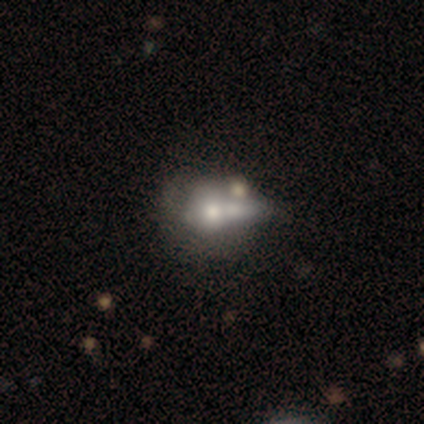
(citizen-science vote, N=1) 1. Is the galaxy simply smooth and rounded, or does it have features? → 100% smooth, 0% featured or disk, 0% star or artifact.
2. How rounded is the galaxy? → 100% round, 0% in between, 0% cigar-shaped.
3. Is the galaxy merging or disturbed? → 100% merger, 0% none, 0% minor disturbance, 0% major disturbance.